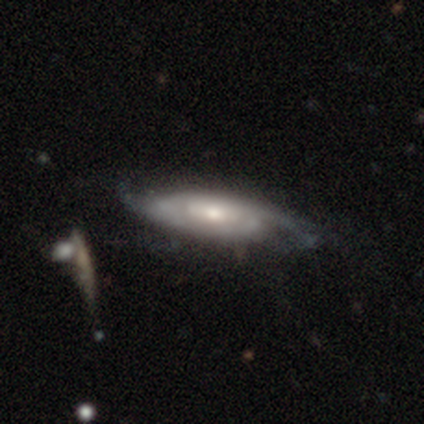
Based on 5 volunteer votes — Overall: featured or disk (60%; smooth 40%). Edge-on disk: no (67%; yes 33%). Bar: weak (50%, tied with no). Spiral arms: yes (100%). Spiral arm count: can't tell (100%). Spiral winding: tight (50%, tied with medium). Bulge size: moderate (100%). Merging: minor disturbance (60%; none 40%).